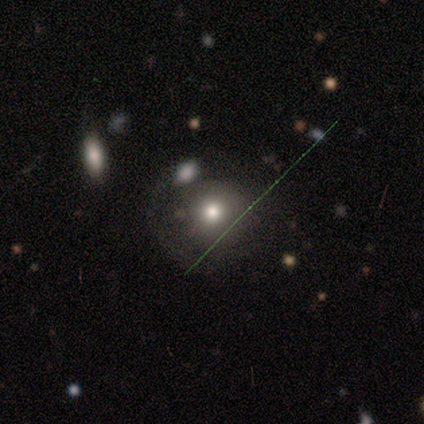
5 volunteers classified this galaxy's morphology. Smooth or featured: smooth — 40% (tied with star or artifact — 40%)
How rounded: round — 100%
Merging: none — 100%